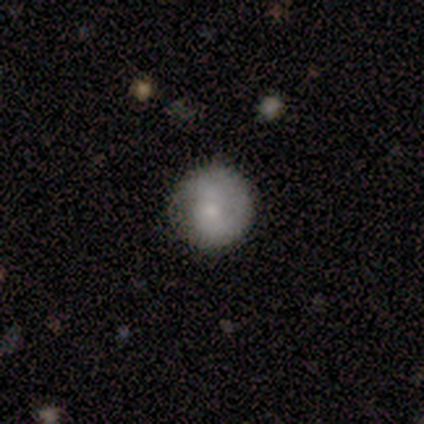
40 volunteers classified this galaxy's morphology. Smooth or featured?
  - smooth: 68% *
  - featured or disk: 22%
  - star or artifact: 10%
How rounded?
  - round: 96% *
  - in between: 4%
  - cigar-shaped: 0%
Merging?
  - none: 83% *
  - minor disturbance: 14%
  - major disturbance: 3%
  - merger: 0%